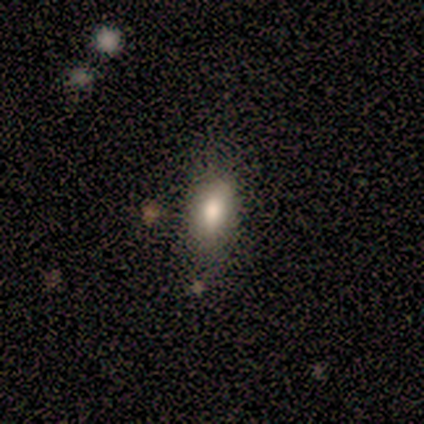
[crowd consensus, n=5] smooth_or_featured: smooth (p=0.80) [alt: star or artifact p=0.20]
how_rounded: in between (p=1.00)
merging: none (p=0.75) [alt: minor disturbance p=0.25]